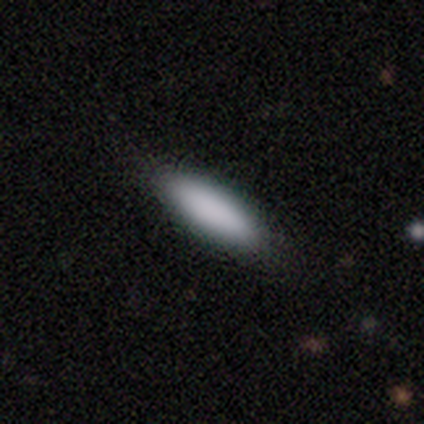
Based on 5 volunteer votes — Morphology: type=smooth (80%); roundness=cigar-shaped (100%); merging=none (80%).